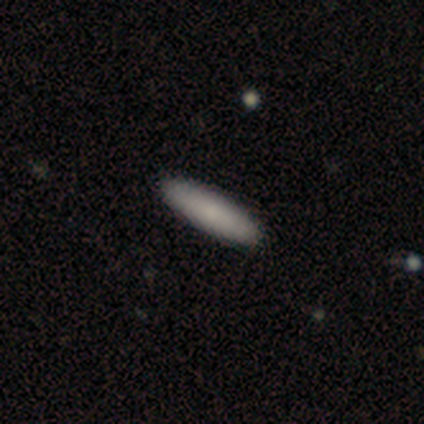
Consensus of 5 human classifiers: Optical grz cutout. It shows a smooth galaxy with no disk features (80%) that is cigar-shaped (75%). Merging: none (75%).